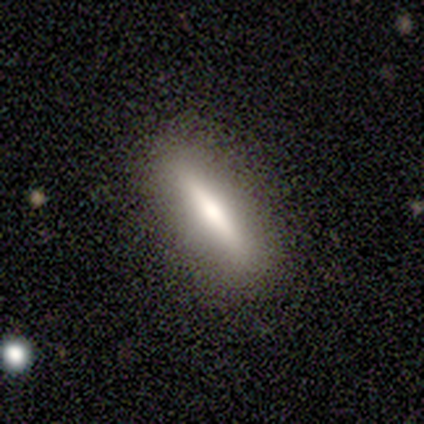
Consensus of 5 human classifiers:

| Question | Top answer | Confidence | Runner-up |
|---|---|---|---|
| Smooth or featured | featured or disk | 60% | smooth (40%) |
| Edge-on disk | yes | 100% | — |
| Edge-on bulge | rounded | 67% | none (33%) |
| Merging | none | 100% | — |